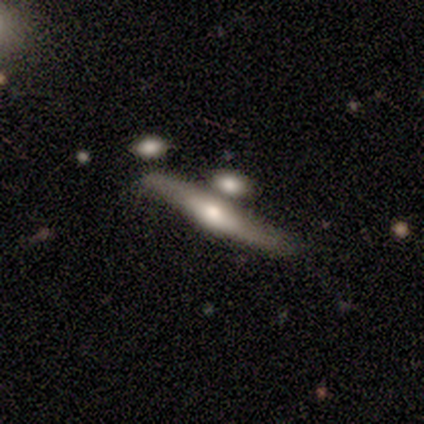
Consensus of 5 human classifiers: Q: Smooth or featured?
A: featured or disk (60%); runner-up: smooth (40%)
Q: Edge-on disk?
A: no (67%); runner-up: yes (33%)
Q: Bar?
A: weak (50%); tied with: no (50%)
Q: Spiral arms?
A: yes (100%)
Q: Spiral winding?
A: tight (50%); tied with: loose (50%)
Q: Spiral arm count?
A: 1 (50%); tied with: 2 (50%)
Q: Bulge size?
A: large (50%); tied with: none (50%)
Q: Merging?
A: merger (60%); runner-up: none (40%)